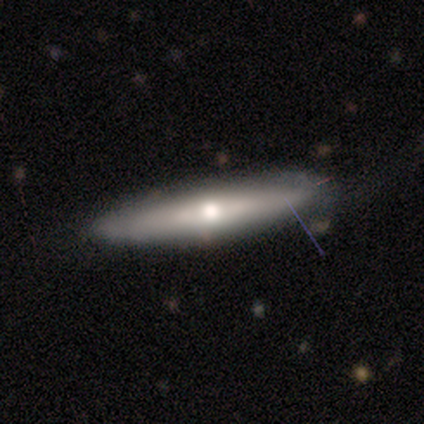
A smooth galaxy with no disk features (80%) that is cigar-shaped (50%).

Vote fractions:
- Smooth or featured? smooth: 80% / featured or disk: 20% / star or artifact: 0%
- How rounded? cigar-shaped: 50% / round: 25% / in between: 25%
- Merging? none: 80% / minor disturbance: 20% / major disturbance: 0% / merger: 0%